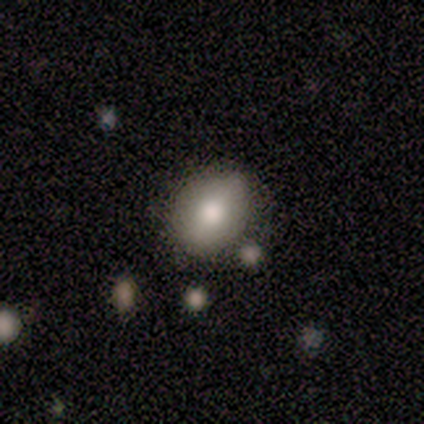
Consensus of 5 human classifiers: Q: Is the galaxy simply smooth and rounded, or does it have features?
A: smooth — 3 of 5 (60%).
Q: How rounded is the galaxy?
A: round — 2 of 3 (67%).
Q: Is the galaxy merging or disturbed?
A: none — 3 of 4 (75%).